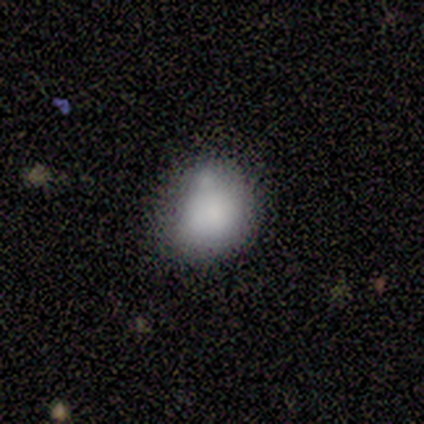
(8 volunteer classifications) Overall: smooth (75%). How rounded: round (100%). Merging: none (57%; minor disturbance 29%).